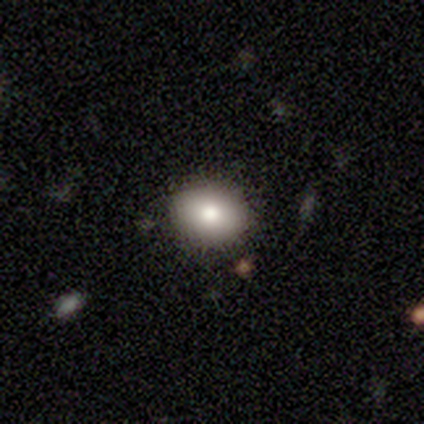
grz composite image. It shows a smooth galaxy with no disk features (80%) that is round (50%, tied with in between). Merging: none (60%).